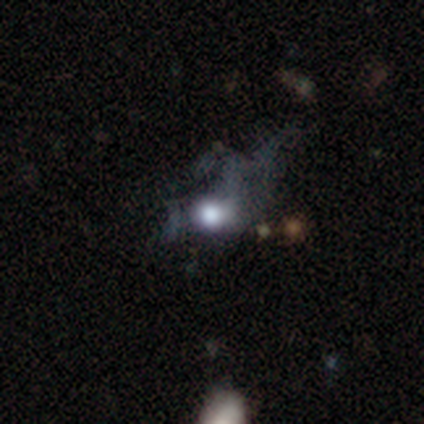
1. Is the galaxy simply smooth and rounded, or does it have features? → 53% smooth, 26% featured or disk, 21% star or artifact.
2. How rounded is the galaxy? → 65% round, 25% in between, 10% cigar-shaped.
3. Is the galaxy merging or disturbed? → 70% major disturbance, 17% none, 13% minor disturbance, 0% merger.